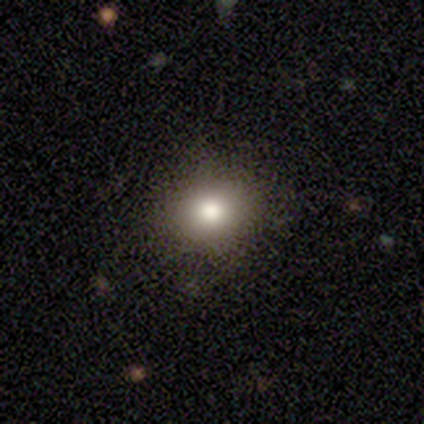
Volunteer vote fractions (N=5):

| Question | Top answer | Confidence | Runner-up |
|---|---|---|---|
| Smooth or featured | smooth | 60% | featured or disk (20%) |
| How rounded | round | 67% | in between (33%) |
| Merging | none | 75% | major disturbance (25%) |